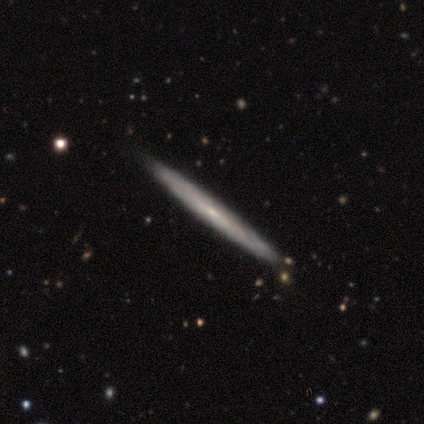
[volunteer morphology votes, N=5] A smooth galaxy with no disk features (40%, tied with featured or disk) that is cigar-shaped (100%). Merging: none (100%).